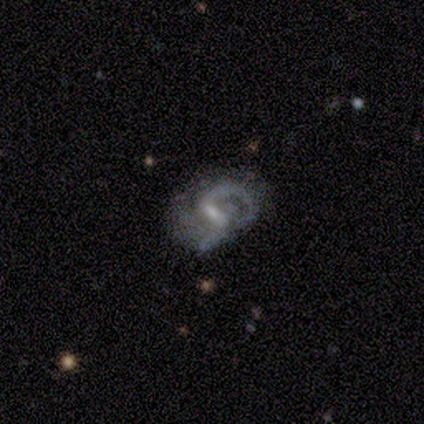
smooth-or-featured: featured or disk: 80% | smooth: 20% | star or artifact: 0%
  disk-edge-on: no: 100% | yes: 0%
    bar: weak: 75% | strong: 25% | no: 0%
    has-spiral-arms: yes: 100% | no: 0%
      spiral-winding: medium: 75% | loose: 25% | tight: 0%
      spiral-arm-count: 2: 100% | 1: 0% | 3: 0% | 4: 0% | more than 4: 0% | can't tell: 0%
    bulge-size: small: 75% | moderate: 25% | dominant: 0% | large: 0% | none: 0%
  merging: none: 80% | minor disturbance: 20% | major disturbance: 0% | merger: 0%